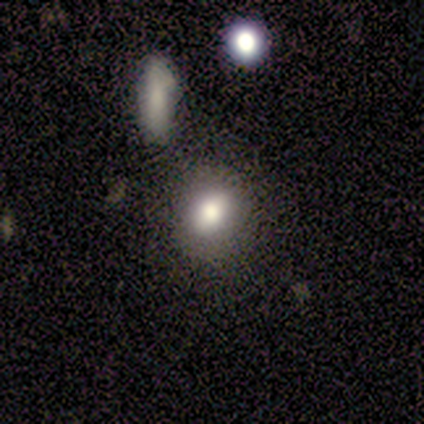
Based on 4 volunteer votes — This is likely a smooth galaxy (75%). How rounded: likely in between (67%). Merging: clearly none (100%).